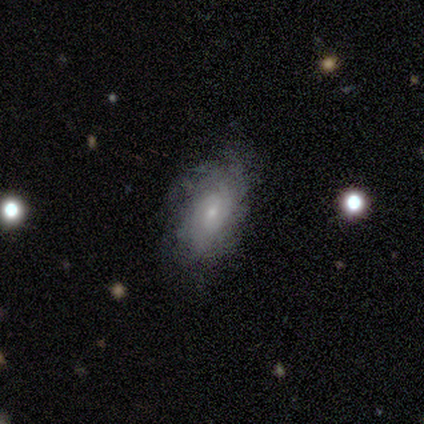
Overall: featured or disk (60%; smooth 40%). Edge-on disk: no (100%). Bar: weak (67%; no 33%). Spiral arms: yes (100%). Spiral arm count: 2 (33%, tied with 3 and can't tell). Spiral winding: loose (67%; medium 33%). Bulge size: small (100%). Merging: none (60%; minor disturbance 20%).